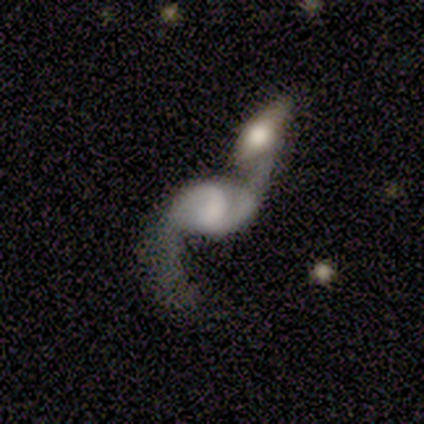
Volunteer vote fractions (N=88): Overall: featured or disk (85%). Edge-on disk: no (96%). Bar: weak (46%; no 44%). Spiral arms: yes (89%). Spiral arm count: 2 (94%). Spiral winding: loose (88%). Bulge size: moderate (26%; none 24%). Merging: merger (68%).